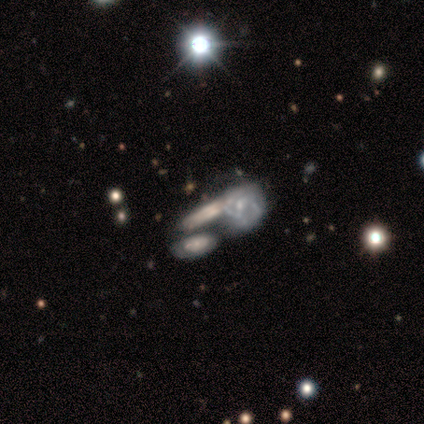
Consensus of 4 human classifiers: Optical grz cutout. It shows a featured or disk galaxy (50%) with no bar (100%), no spiral arms (100%) and no central bulge (100%). Merging: minor disturbance (67%).